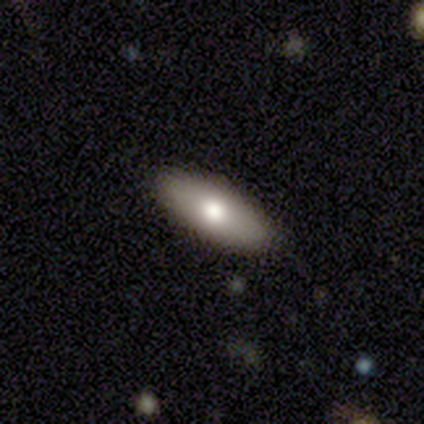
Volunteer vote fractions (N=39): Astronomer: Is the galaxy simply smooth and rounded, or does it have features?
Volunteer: smooth — 77%.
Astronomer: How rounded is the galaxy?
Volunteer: in between — 80%.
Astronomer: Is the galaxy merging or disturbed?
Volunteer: none — 89%.